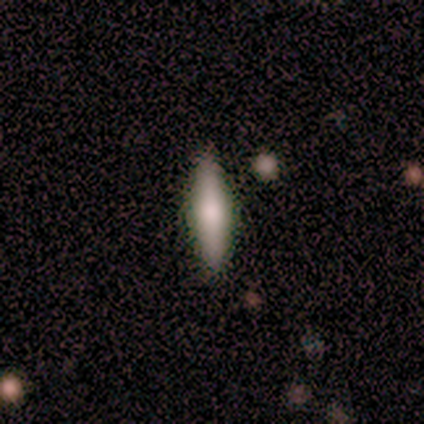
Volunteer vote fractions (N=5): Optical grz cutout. It shows a smooth galaxy with no disk features (100%) that is cigar-shaped (80%). Merging: none (100%).